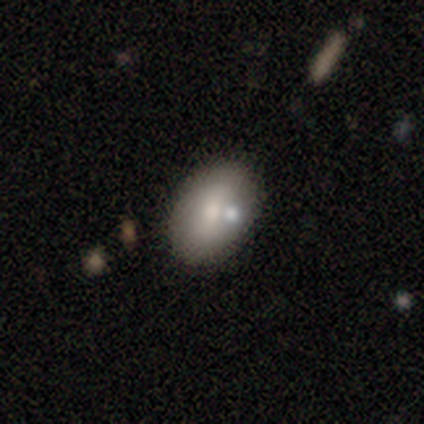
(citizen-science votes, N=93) smooth 70%, featured or disk 22%, star or artifact 9%. Down the decision tree: how rounded — in between (86%); merging — none (71%).